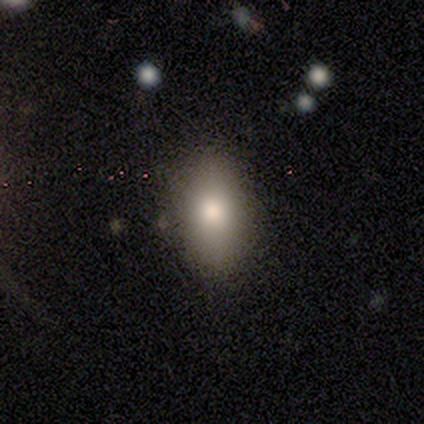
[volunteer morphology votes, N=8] This appears to be a smooth galaxy with no disk features (100%) that is in between round and cigar-shaped (100%). Merging: none (88%).